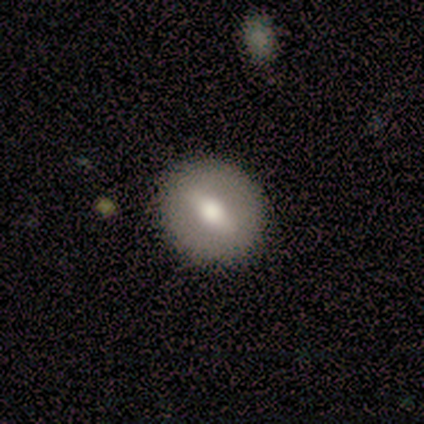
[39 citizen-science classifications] Smooth or featured?
  - smooth: 54% *
  - featured or disk: 41%
  - star or artifact: 5%
How rounded?
  - round: 76% *
  - in between: 19%
  - cigar-shaped: 5%
Merging?
  - none: 86% *
  - minor disturbance: 8%
  - major disturbance: 3%
  - merger: 3%